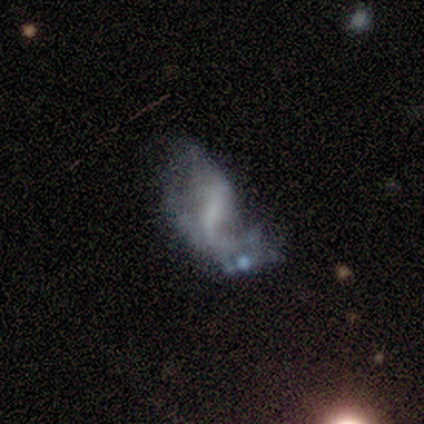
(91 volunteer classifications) Smooth or featured?
  - featured or disk: 64% *
  - smooth: 19%
  - star or artifact: 18%
Edge-on disk?
  - no: 97% *
  - yes: 3%
Bar?
  - no: 48% *
  - weak: 32%
  - strong: 20%
Spiral arms?
  - yes: 55% *
  - no: 45%
Spiral winding?
  - loose: 65% *
  - medium: 35%
  - tight: 0%
Spiral arm count?
  - 2: 48% *
  - 1: 39%
  - can't tell: 10%
  - 3: 3%
  - 4: 0%
  - more than 4: 0%
Bulge size?
  - none: 59% *
  - small: 23%
  - moderate: 12%
  - large: 5%
  - dominant: 0%
Merging?
  - major disturbance: 48% *
  - minor disturbance: 20%
  - merger: 17%
  - none: 15%